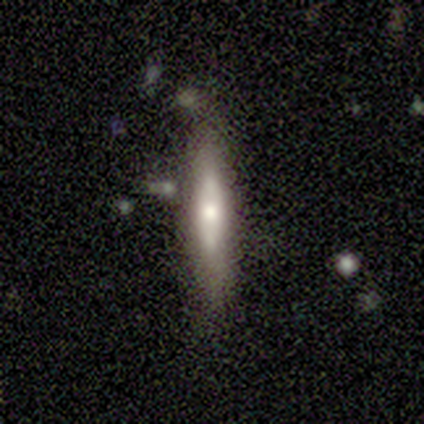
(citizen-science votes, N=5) Overall: smooth (80%). How rounded: cigar-shaped (100%). Merging: none (80%).